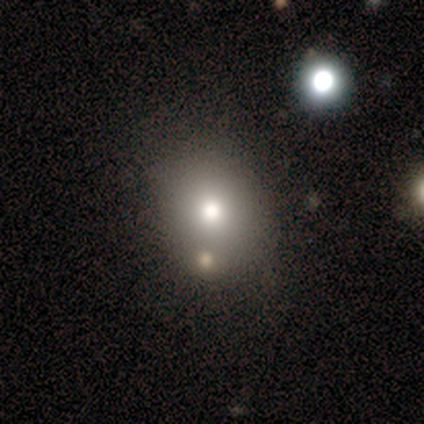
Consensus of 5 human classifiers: Smooth or featured?
  - smooth: 60% *
  - star or artifact: 40%
  - featured or disk: 0%
How rounded?
  - round: 67% *
  - in between: 33%
  - cigar-shaped: 0%
Merging?
  - none: 67% *
  - merger: 33%
  - minor disturbance: 0%
  - major disturbance: 0%